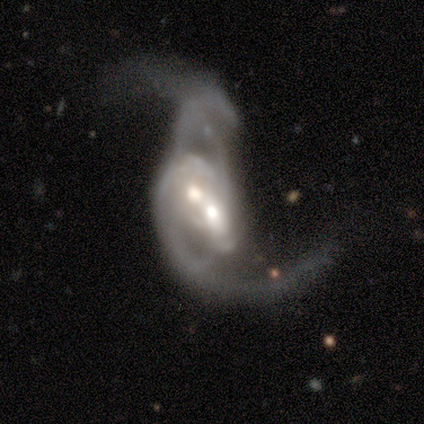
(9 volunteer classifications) Morphology: type=featured or disk (89%); edge-on=no (100%); bar=no (62%); spiral arms=yes (100%); winding=loose (88%); arm count=2 (62%); bulge=moderate (75%); merging=merger (100%).